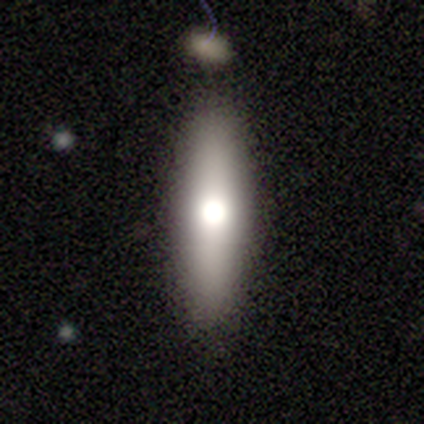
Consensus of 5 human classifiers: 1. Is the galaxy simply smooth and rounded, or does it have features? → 60% smooth, 40% featured or disk, 0% star or artifact.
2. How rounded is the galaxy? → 100% cigar-shaped, 0% round, 0% in between.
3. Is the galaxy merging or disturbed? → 40% none (tied), 40% minor disturbance (tied), 20% merger, 0% major disturbance.